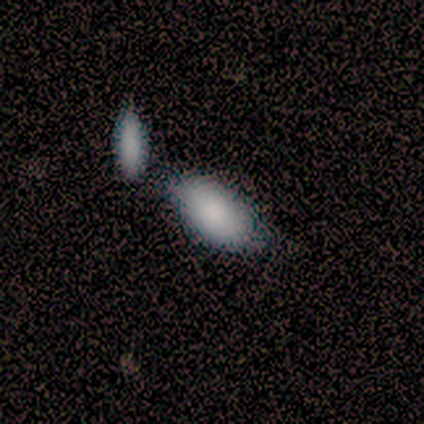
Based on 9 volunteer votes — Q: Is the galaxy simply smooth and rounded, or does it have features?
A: smooth — 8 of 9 (89%).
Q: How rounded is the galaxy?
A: in between — 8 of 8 (100%).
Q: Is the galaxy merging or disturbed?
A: none — 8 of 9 (89%).